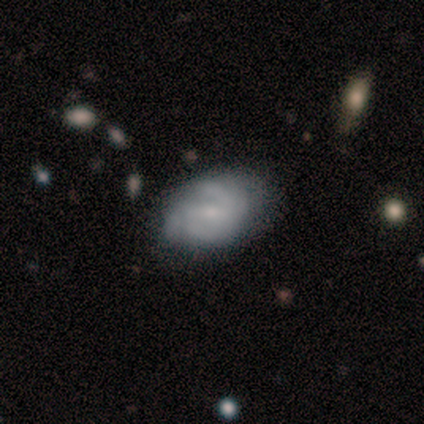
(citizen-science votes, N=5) smooth_or_featured: featured or disk (p=0.60) [alt: smooth p=0.40]
disk_edge_on: no (p=1.00)
bar: weak (p=1.00)
has_spiral_arms: yes (p=0.67) [alt: no p=0.33]
spiral_winding: tight (p=0.50) [tied with: medium p=0.50]
spiral_arm_count: 2 (p=0.50) [tied with: can't tell p=0.50]
bulge_size: small (p=0.67) [alt: moderate p=0.33]
merging: minor disturbance (p=0.60) [alt: major disturbance p=0.40]